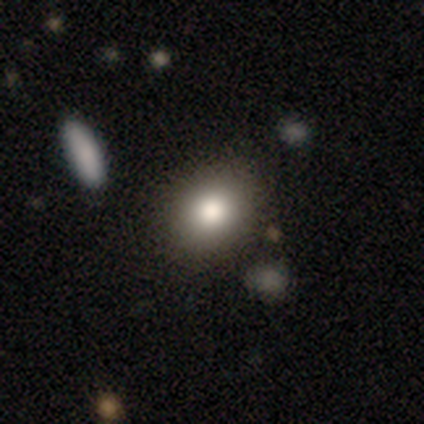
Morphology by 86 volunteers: Smooth or featured? smooth (80%)
How rounded? in between (51%)
Merging? none (79%)